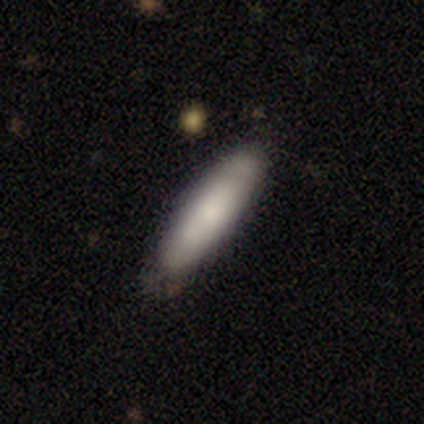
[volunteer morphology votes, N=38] type=smooth (84%); roundness=cigar-shaped (78%); merging=none (76%).